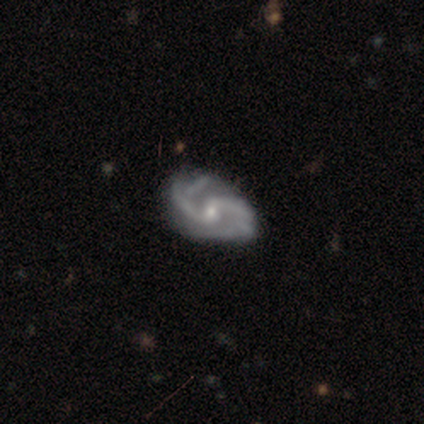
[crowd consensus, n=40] Q: Smooth or featured?
A: featured or disk (100%)
Q: Edge-on disk?
A: no (95%); runner-up: yes (5%)
Q: Bar?
A: weak (61%); runner-up: no (32%)
Q: Spiral arms?
A: yes (100%)
Q: Spiral winding?
A: medium (58%); runner-up: loose (24%)
Q: Spiral arm count?
A: 2 (89%); runner-up: 3 (8%)
Q: Bulge size?
A: small (63%); runner-up: moderate (34%)
Q: Merging?
A: none (42%); runner-up: minor disturbance (25%)